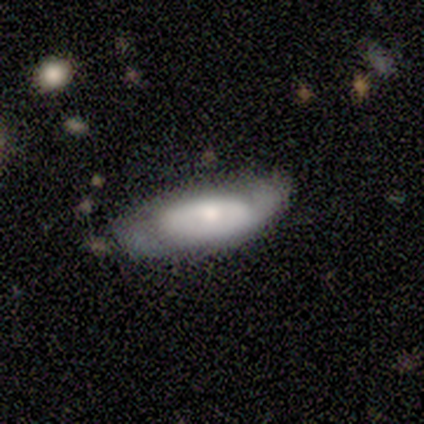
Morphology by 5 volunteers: A smooth galaxy with no disk features (80%) that is in between round and cigar-shaped (50%, tied with cigar-shaped). Merging: none (60%).